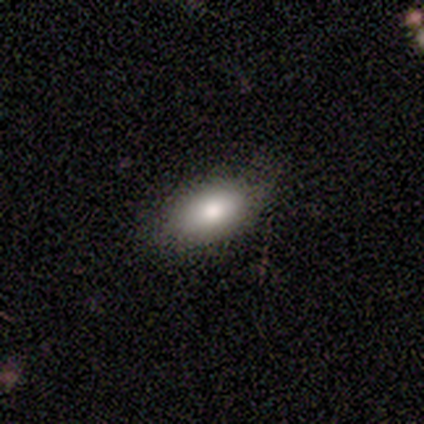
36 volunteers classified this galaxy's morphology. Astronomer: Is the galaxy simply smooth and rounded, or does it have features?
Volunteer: smooth — 89%.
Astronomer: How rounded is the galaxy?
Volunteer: in between — 97%.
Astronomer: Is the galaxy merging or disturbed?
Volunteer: none — 85%.